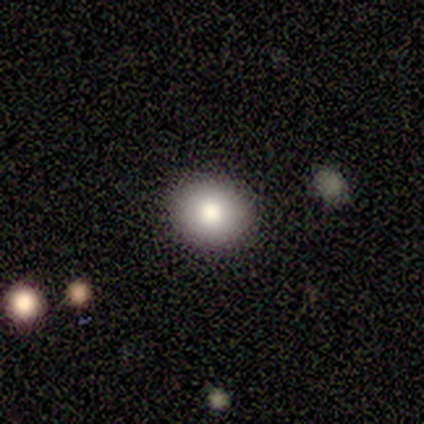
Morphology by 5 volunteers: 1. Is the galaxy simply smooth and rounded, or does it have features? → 100% smooth, 0% featured or disk, 0% star or artifact.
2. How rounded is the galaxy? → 100% round, 0% in between, 0% cigar-shaped.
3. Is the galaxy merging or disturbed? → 80% none, 20% merger, 0% minor disturbance, 0% major disturbance.